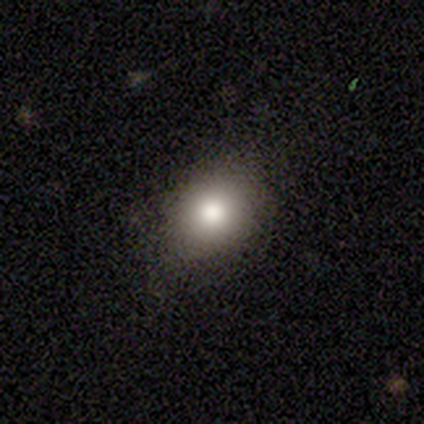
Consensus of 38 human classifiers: smooth-or-featured: smooth: 66% | star or artifact: 21% | featured or disk: 13%
  how-rounded: in between: 60% | round: 40% | cigar-shaped: 0%
  merging: none: 80% | minor disturbance: 17% | merger: 3% | major disturbance: 0%